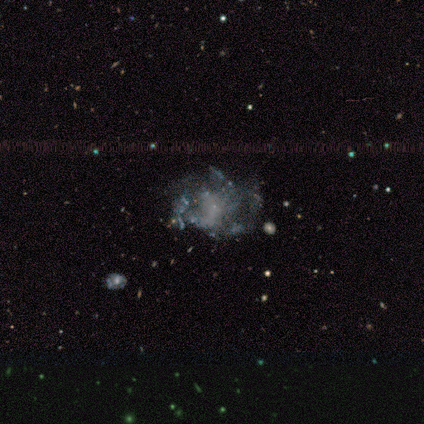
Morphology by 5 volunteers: featured or disk 100%, smooth 0%, star or artifact 0%. Down the decision tree: edge-on disk — no (100%); bar — no (100%); spiral arms — yes (80%); spiral arm count — can't tell (75%); spiral winding — tight (50%, tied with loose); bulge size — small (80%); merging — none (60%).